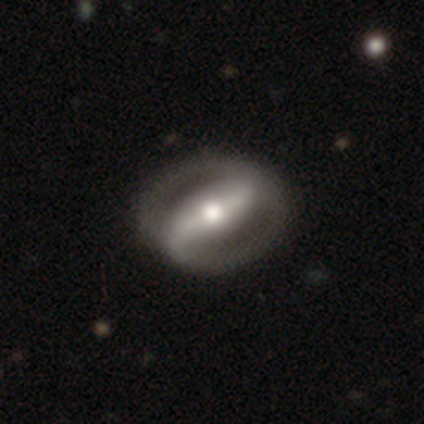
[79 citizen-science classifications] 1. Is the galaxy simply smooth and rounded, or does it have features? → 90% featured or disk, 6% smooth, 4% star or artifact.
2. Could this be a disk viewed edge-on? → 90% no, 10% yes.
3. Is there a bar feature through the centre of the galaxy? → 75% strong, 12% weak, 12% no.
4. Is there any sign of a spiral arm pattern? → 69% yes, 31% no.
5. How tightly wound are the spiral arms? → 41% loose, 39% medium, 20% tight.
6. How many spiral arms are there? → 91% 2, 5% 1, 5% can't tell, 0% 3, 0% 4, 0% more than 4.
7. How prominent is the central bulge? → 70% moderate, 14% large, 9% small, 3% dominant, 3% none.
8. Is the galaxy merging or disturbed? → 45% none, 4% major disturbance, 3% merger, 1% minor disturbance.